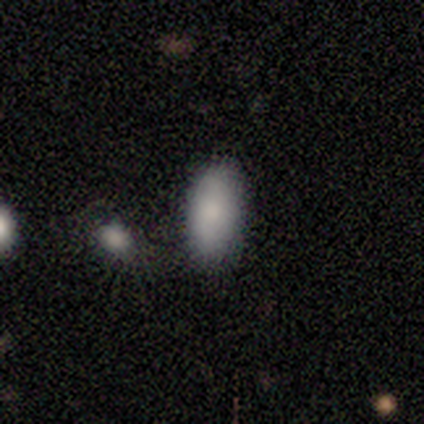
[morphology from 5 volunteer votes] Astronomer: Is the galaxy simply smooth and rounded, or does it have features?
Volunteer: smooth — 100%.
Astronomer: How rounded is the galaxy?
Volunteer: in between — 100%.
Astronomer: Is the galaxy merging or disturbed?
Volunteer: none — 60% (runner-up: minor disturbance, 40%).